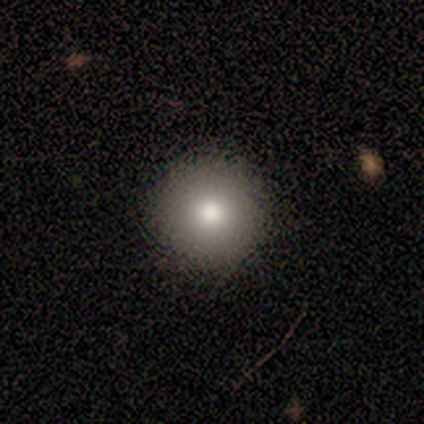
Volunteers were most divided on "smooth or featured": smooth: 75%, featured or disk: 25%, star or artifact: 0%. More confident: how rounded — round (100%); merging — none (100%).